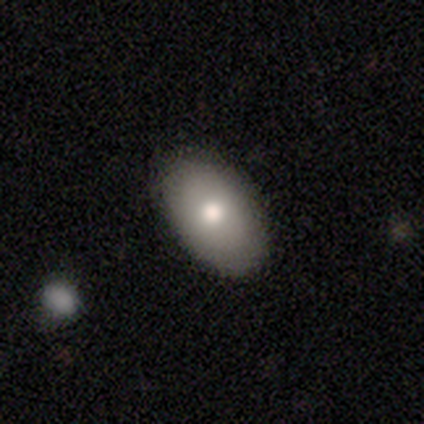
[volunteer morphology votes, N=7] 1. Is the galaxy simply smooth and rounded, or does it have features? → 86% smooth, 14% star or artifact, 0% featured or disk.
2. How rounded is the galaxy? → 100% in between, 0% round, 0% cigar-shaped.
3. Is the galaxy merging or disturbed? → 100% none, 0% minor disturbance, 0% major disturbance, 0% merger.